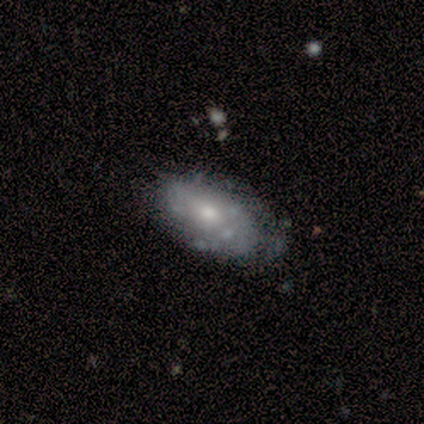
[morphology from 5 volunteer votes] smooth-or-featured: featured or disk: 100% | smooth: 0% | star or artifact: 0%
  disk-edge-on: no: 80% | yes: 20%
    bar: no: 100% | strong: 0% | weak: 0%
    has-spiral-arms: no: 100% | yes: 0%
    bulge-size: moderate: 50% (tied) | small: 50% (tied) | dominant: 0% | large: 0% | none: 0%
  merging: none: 80% | minor disturbance: 20% | major disturbance: 0% | merger: 0%